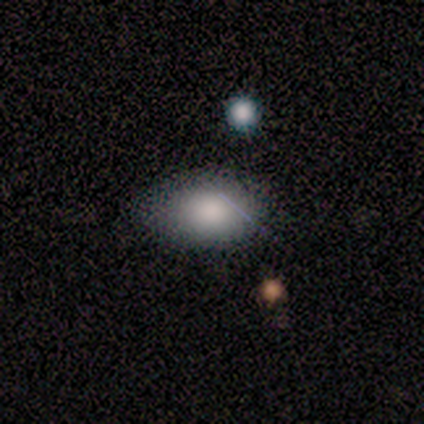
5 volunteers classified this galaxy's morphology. This is clearly a smooth galaxy (100%). How rounded: clearly in between (100%). Merging: likely none (60%).